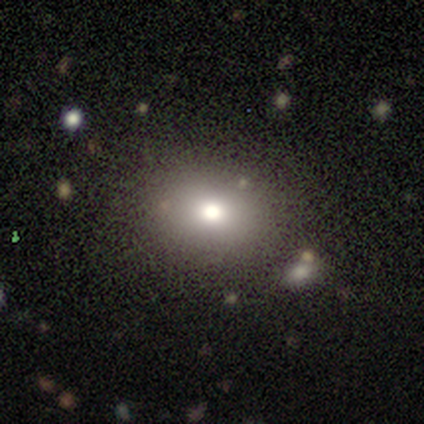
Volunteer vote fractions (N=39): Morphology: type=smooth (72%); roundness=round (54%); merging=none (85%).